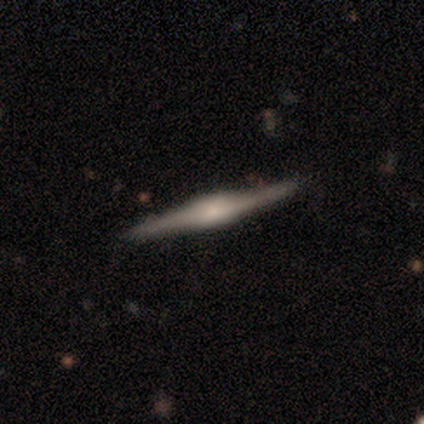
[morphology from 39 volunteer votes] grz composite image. It shows a featured or disk galaxy (87%) viewed edge-on (100%) with a boxy central bulge (56%). Merging: none (84%).